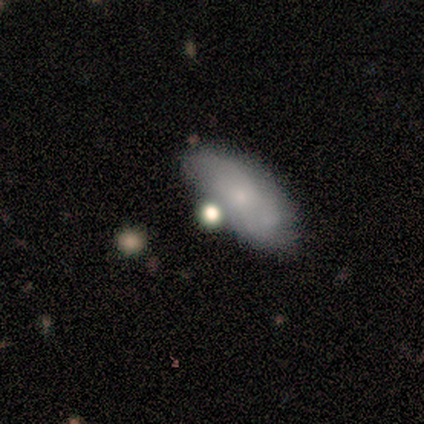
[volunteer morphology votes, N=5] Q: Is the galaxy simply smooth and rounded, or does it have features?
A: smooth — 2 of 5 (40%, tied with featured or disk).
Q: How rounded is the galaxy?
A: in between — 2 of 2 (100%).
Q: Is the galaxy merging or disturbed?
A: none — 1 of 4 (25%, tied with minor disturbance, major disturbance and merger).